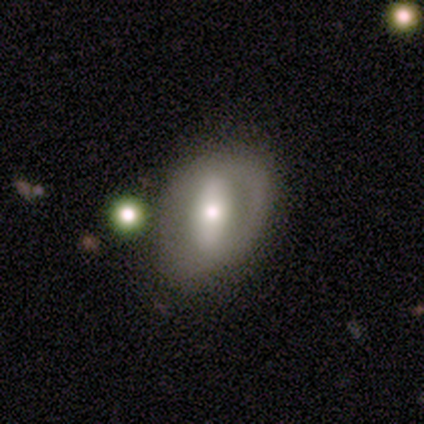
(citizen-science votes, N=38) This is possibly a featured or disk galaxy (50%). It is clearly not viewed edge-on (100%). Bar: likely strong (63%). Spiral arm pattern: likely no (68%). Central bulge: possibly moderate (58%). Merging: possibly none (59%).